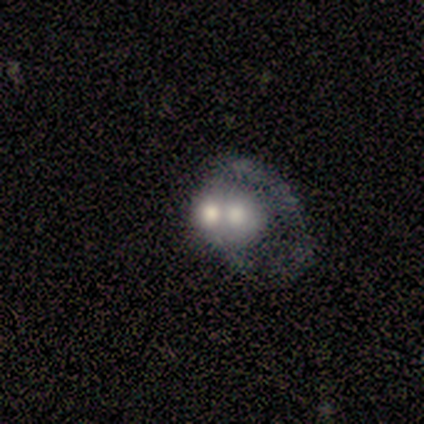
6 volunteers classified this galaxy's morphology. This appears to be a smooth galaxy with no disk features (67%) that is round (50%). Merging: merger (83%).